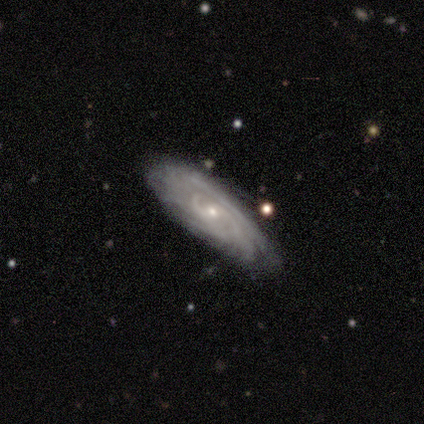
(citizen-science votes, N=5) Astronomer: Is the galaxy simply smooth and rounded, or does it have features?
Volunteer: featured or disk — 100%.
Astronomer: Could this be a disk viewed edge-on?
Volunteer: no — 100%.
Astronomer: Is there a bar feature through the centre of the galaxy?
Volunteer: no — 60% (runner-up: weak, 40%).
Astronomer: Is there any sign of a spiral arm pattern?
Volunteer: yes — 100%.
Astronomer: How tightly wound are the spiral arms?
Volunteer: tight — 100%.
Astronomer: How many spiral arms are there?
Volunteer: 3 — 40%, tied with more than 4 at 40%.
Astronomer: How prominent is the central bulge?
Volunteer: small — 80%.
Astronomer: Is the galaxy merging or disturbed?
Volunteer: none — 80%.